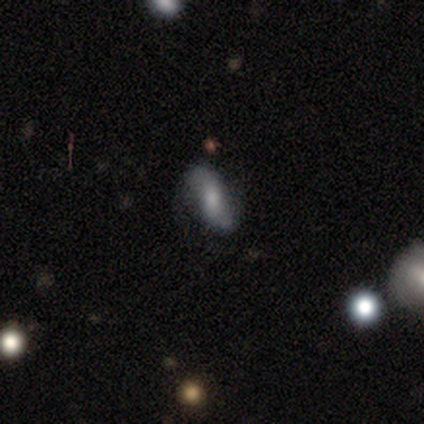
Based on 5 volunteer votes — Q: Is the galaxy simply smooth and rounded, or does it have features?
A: featured or disk — 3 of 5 (60%).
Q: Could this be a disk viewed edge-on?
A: no — 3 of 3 (100%).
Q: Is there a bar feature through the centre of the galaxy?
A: no — 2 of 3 (67%).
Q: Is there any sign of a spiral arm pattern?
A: yes — 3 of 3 (100%).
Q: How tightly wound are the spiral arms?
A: loose — 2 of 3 (67%).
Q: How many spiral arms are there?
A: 2 — 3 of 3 (100%).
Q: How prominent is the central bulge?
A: moderate — 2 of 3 (67%).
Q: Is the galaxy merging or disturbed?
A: minor disturbance — 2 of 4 (50%).